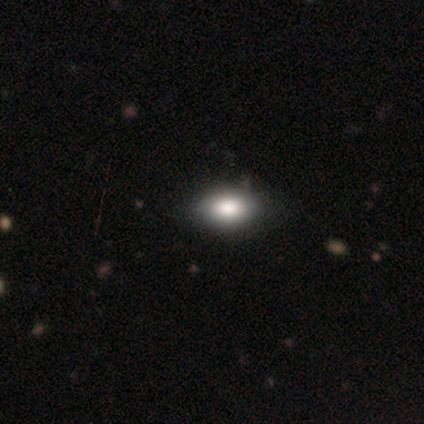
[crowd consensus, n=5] Volunteers were most divided on "merging": minor disturbance: 50%, none: 25%, merger: 25%, major disturbance: 0%. More confident: smooth or featured — smooth (80%); how rounded — in between (75%).